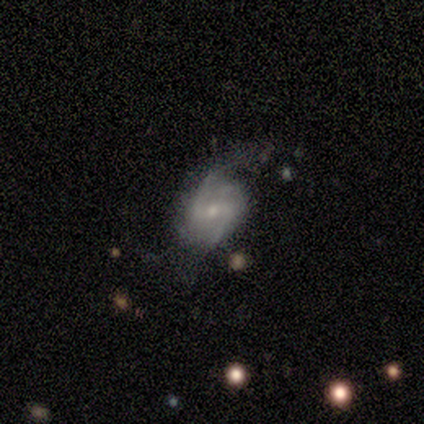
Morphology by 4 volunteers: featured or disk 75%, smooth 25%, star or artifact 0%. Down the decision tree: edge-on disk — no (100%); bar — weak (67%); spiral arms — yes (100%); spiral arm count — can't tell (67%); spiral winding — medium (100%); bulge size — small (67%); merging — none (50%, tied with major disturbance).